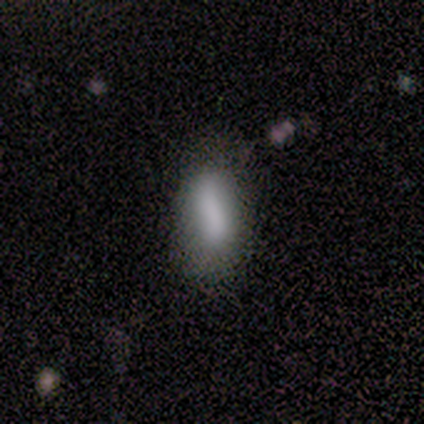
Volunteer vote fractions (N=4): smooth_or_featured: smooth (p=1.00)
how_rounded: in between (p=0.75) [alt: cigar-shaped p=0.25]
merging: none (p=0.75) [alt: minor disturbance p=0.25]